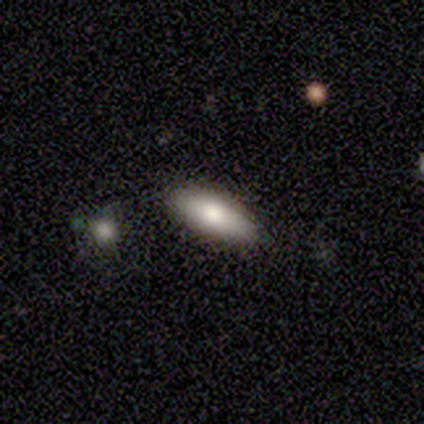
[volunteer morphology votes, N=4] This is clearly a smooth galaxy (100%). How rounded: likely in between (75%). Merging: likely none (75%).